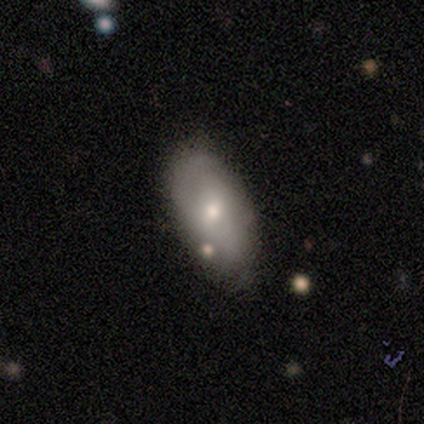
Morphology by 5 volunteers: Q: Smooth or featured?
A: smooth (60%); runner-up: featured or disk (40%)
Q: How rounded?
A: in between (100%)
Q: Merging?
A: none (80%); runner-up: minor disturbance (20%)